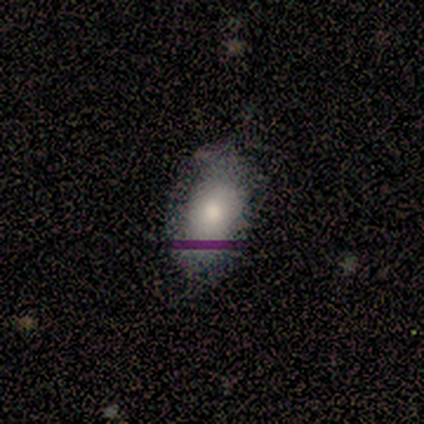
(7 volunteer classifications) Smooth or featured? smooth (57%)
How rounded? in between (100%)
Merging? none (50%, tied with minor disturbance)